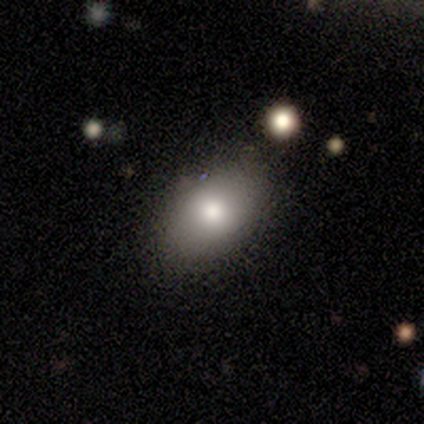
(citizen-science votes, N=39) Overall: smooth (79%). How rounded: in between (81%). Merging: none (79%).